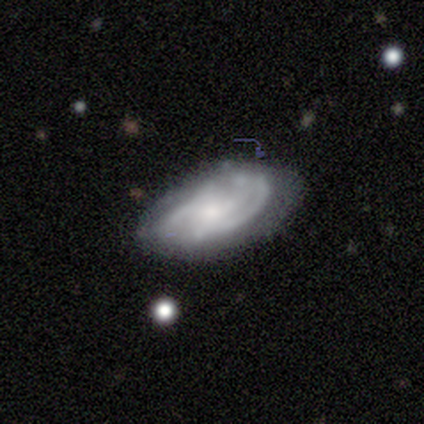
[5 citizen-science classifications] Morphology: type=featured or disk (100%); edge-on=no (100%); bar=no (100%); spiral arms=yes (80%); winding=medium (75%); arm count=can't tell (50%); bulge=small (60%); merging=none (60%).